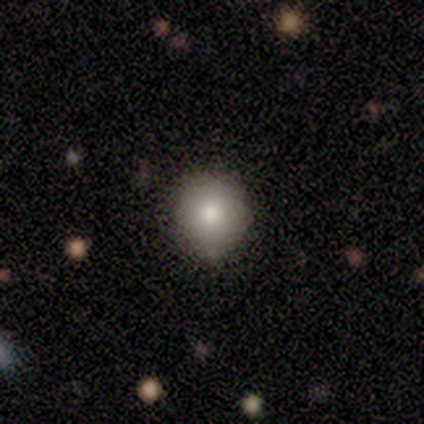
This appears to be a smooth galaxy with no disk features (80%) that is round (100%). Merging: none (75%).